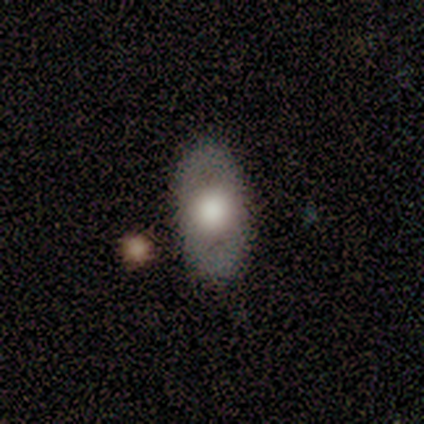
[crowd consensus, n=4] Smooth or featured: smooth — 50% (tied with featured or disk — 50%)
How rounded: in between — 100%
Merging: none — 75% (minor disturbance — 25%)